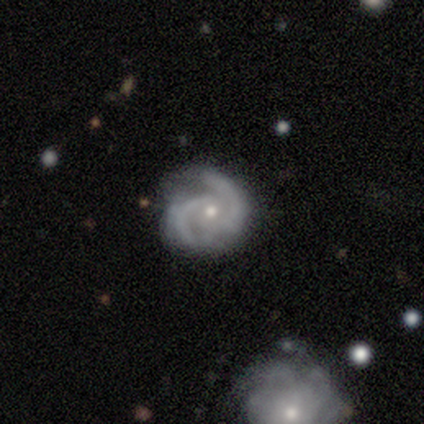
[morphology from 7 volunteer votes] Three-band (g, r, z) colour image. It shows a featured or disk galaxy (100%) with no bar (86%), 2 (100%) medium (57%) spiral arms (100%) and a small central bulge (86%). Merging: none (71%).